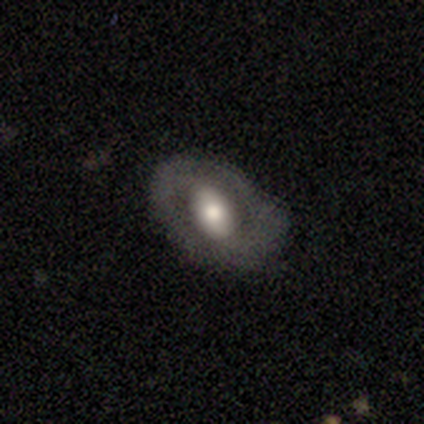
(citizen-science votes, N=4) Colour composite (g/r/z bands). It shows a smooth galaxy with no disk features (50%, tied with featured or disk) that is in between round and cigar-shaped (100%). Merging: none (50%, tied with minor disturbance).